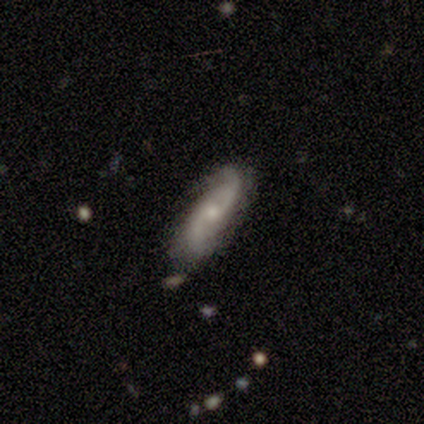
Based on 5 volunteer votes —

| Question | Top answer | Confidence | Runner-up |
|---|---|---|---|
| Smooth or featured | featured or disk | 80% | smooth (20%) |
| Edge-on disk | no | 100% | — |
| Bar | no | 75% | weak (25%) |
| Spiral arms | yes | 75% | no (25%) |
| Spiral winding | loose | 100% | — |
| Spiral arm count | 2 | 67% | 3 (33%) |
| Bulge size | small | 75% | moderate (25%) |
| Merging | none | 100% | — |